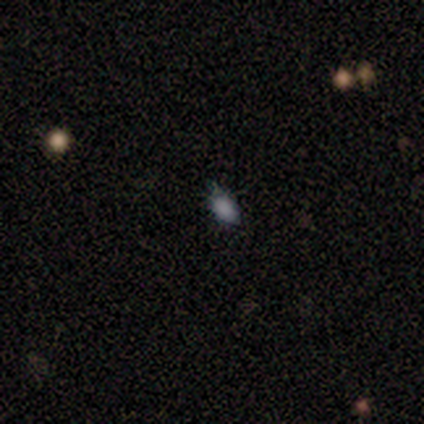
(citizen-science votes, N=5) smooth-or-featured: smooth: 60% | star or artifact: 40% | featured or disk: 0%
  how-rounded: in between: 67% | round: 33% | cigar-shaped: 0%
  merging: none: 67% | minor disturbance: 33% | major disturbance: 0% | merger: 0%